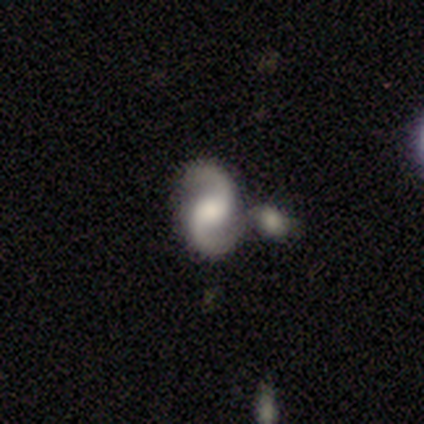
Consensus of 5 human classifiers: featured or disk 100%, smooth 0%, star or artifact 0%. Down the decision tree: edge-on disk — no (100%); bar — no (80%); spiral arms — yes (80%); spiral arm count — 2 (100%); spiral winding — medium (75%); bulge size — moderate (40%); merging — none (40%, tied with merger).